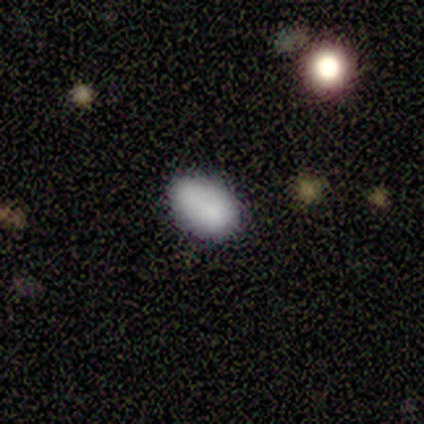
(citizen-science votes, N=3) Morphology: type=smooth (100%); roundness=in between (100%); merging=none (33%, tied with minor disturbance and merger).